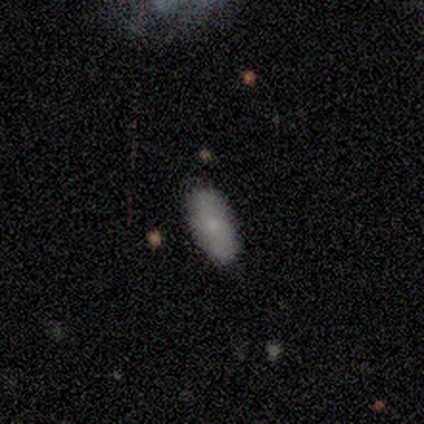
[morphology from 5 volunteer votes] Q: Smooth or featured?
A: smooth (80%); runner-up: star or artifact (20%)
Q: How rounded?
A: in between (50%); tied with: cigar-shaped (50%)
Q: Merging?
A: none (100%)